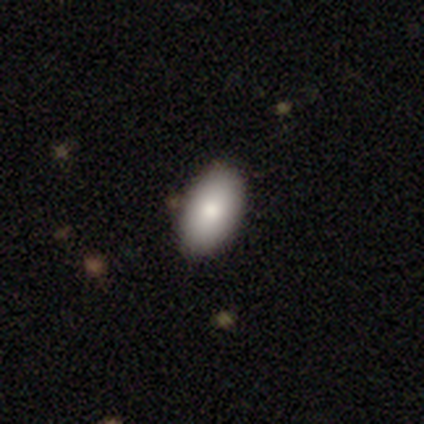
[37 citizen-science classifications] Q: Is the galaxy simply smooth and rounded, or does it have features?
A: smooth — 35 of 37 (95%).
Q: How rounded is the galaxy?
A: in between — 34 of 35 (97%).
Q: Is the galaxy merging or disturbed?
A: none — 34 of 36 (94%).